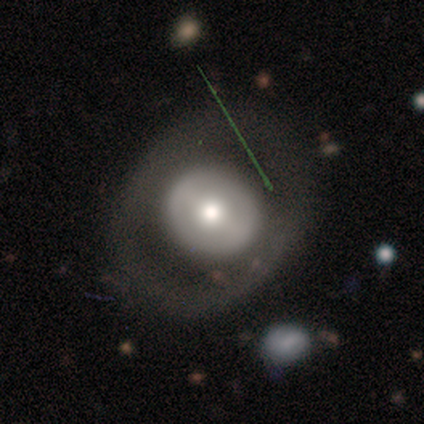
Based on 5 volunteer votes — A smooth galaxy with no disk features (60%) that is round (100%).

Vote fractions:
- Smooth or featured? smooth: 60% / featured or disk: 40% / star or artifact: 0%
- How rounded? round: 100% / in between: 0% / cigar-shaped: 0%
- Merging? none: 100% / minor disturbance: 0% / major disturbance: 0% / merger: 0%